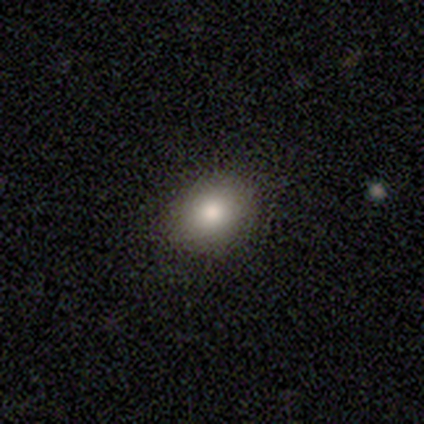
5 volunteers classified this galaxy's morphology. A smooth galaxy with no disk features (100%) that is in between round and cigar-shaped (60%).

Vote fractions:
- Smooth or featured? smooth: 100% / featured or disk: 0% / star or artifact: 0%
- How rounded? in between: 60% / round: 40% / cigar-shaped: 0%
- Merging? none: 100% / minor disturbance: 0% / major disturbance: 0% / merger: 0%